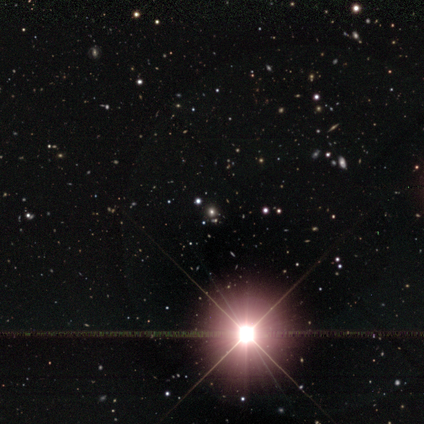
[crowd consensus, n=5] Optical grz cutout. It shows a star or artifact, not a galaxy (60%).